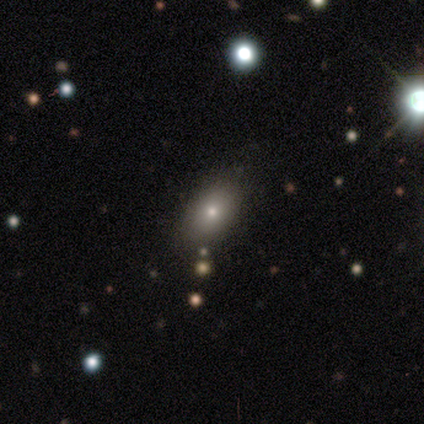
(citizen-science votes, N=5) A smooth galaxy with no disk features (80%) that is in between round and cigar-shaped (75%).

Vote fractions:
- Smooth or featured? smooth: 80% / featured or disk: 20% / star or artifact: 0%
- How rounded? in between: 75% / round: 25% / cigar-shaped: 0%
- Merging? none: 60% / merger: 40% / minor disturbance: 0% / major disturbance: 0%